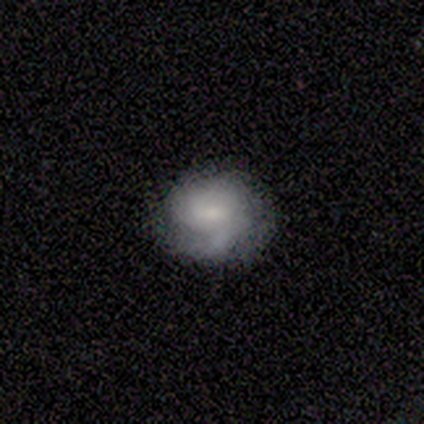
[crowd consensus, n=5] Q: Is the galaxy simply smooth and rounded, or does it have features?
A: featured or disk — 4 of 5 (80%).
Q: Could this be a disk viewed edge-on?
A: no — 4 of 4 (100%).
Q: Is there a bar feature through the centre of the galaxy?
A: weak — 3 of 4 (75%).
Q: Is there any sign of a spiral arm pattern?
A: yes — 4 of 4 (100%).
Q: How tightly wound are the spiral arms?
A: tight — 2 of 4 (50%).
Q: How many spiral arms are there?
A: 2 — 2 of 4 (50%).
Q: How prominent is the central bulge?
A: moderate — 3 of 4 (75%).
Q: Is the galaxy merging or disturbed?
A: none — 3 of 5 (60%).